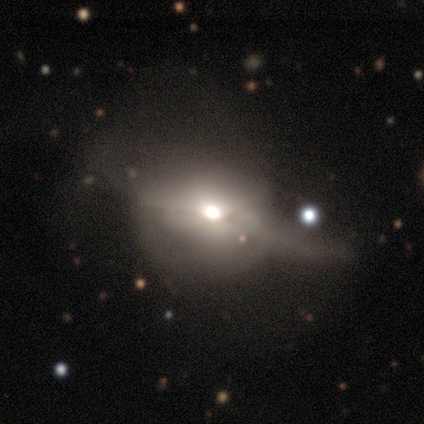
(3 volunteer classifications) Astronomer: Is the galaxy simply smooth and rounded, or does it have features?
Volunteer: featured or disk — 67%.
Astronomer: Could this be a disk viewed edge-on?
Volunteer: yes — 50%, tied with no at 50%.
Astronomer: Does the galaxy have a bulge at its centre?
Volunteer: rounded — 100%.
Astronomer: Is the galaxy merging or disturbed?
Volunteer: none — 33%, tied with minor disturbance and major disturbance at 33%.